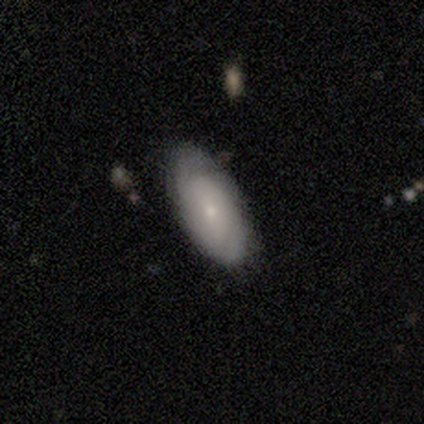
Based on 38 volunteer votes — This is possibly a smooth galaxy (53%). How rounded: clearly in between (90%). Merging: likely none (74%).